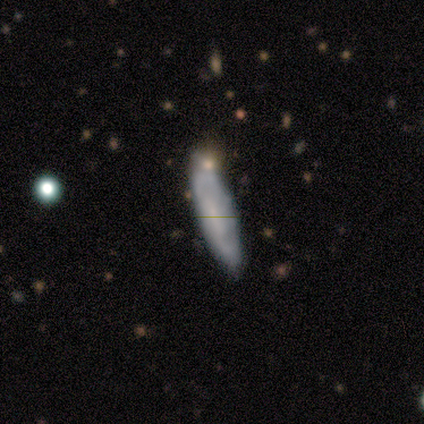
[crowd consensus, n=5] smooth_or_featured: featured or disk (p=0.60) [alt: smooth p=0.40]
disk_edge_on: no (p=0.67) [alt: yes p=0.33]
bar: strong (p=0.50) [tied with: weak p=0.50]
has_spiral_arms: no (p=1.00)
bulge_size: moderate (p=0.50) [tied with: none p=0.50]
merging: none (p=0.80) [alt: merger p=0.20]